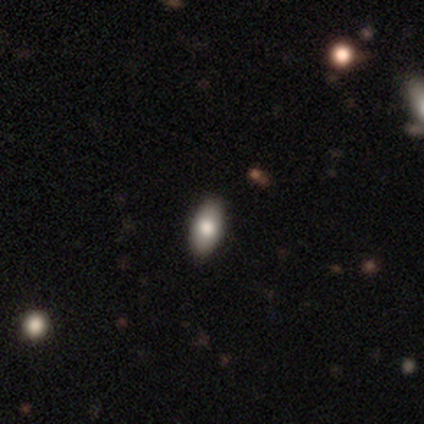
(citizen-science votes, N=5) Q: Smooth or featured?
A: smooth (40%); tied with: featured or disk (40%)
Q: How rounded?
A: in between (100%)
Q: Merging?
A: none (100%)